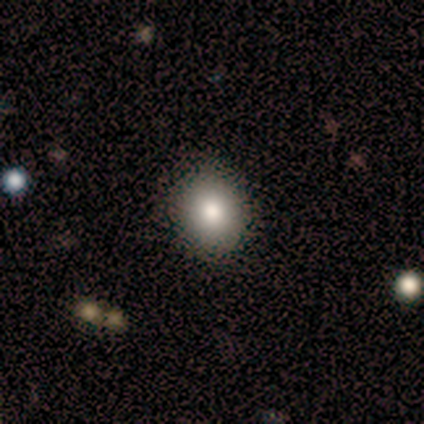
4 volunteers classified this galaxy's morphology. Smooth or featured? 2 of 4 (50%, tied with star or artifact) said smooth. How rounded? 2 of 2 (100%) said round. Merging? 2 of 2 (100%) said none.